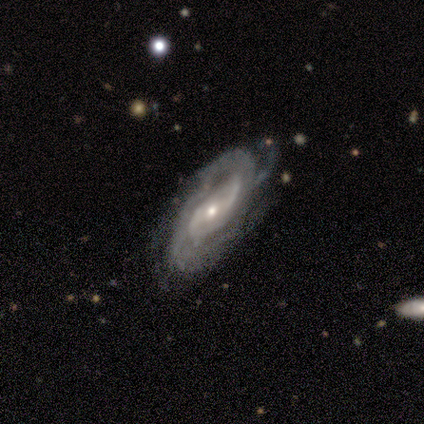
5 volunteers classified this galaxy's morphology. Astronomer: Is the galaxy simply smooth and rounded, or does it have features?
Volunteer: featured or disk — 80%.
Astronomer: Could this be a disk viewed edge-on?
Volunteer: no — 100%.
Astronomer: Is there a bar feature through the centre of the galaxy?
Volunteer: weak — 50%, tied with no at 50%.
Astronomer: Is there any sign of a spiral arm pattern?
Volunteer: yes — 100%.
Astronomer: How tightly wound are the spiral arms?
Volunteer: tight — 50%, tied with medium at 50%.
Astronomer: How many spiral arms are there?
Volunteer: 2 — 50%, tied with can't tell at 50%.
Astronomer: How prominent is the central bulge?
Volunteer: small — 100%.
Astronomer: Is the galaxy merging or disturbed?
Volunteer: none — 60% (runner-up: merger, 40%).